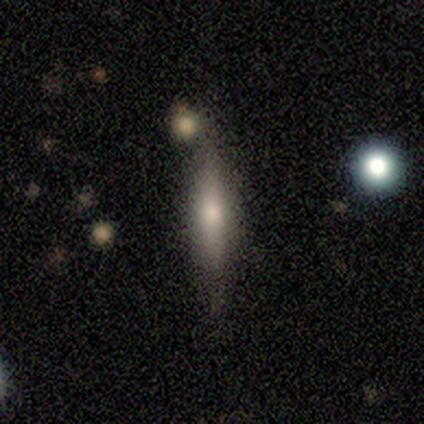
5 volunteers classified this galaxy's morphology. Smooth or featured?
  - smooth: 80% *
  - featured or disk: 20%
  - star or artifact: 0%
How rounded?
  - cigar-shaped: 100% *
  - round: 0%
  - in between: 0%
Merging?
  - none: 80% *
  - merger: 20%
  - minor disturbance: 0%
  - major disturbance: 0%